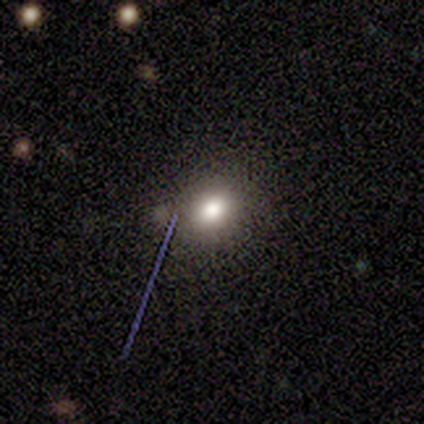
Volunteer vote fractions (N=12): Volunteers were most divided on "how rounded": in between: 70%, round: 30%, cigar-shaped: 0%. More confident: merging — none (90%); smooth or featured — smooth (83%).